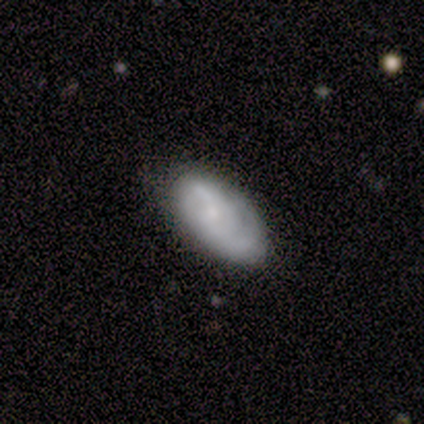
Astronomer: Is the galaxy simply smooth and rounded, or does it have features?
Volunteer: featured or disk — 100%.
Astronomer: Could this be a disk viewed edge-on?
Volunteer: no — 100%.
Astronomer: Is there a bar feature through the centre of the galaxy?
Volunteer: no — 100%.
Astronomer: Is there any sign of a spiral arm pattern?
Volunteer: yes — 100%.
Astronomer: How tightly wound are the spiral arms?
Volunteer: tight — 75%.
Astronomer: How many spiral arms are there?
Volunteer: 2 — 50%.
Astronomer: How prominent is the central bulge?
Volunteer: small — 100%.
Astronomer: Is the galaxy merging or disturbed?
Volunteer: none — 75%.